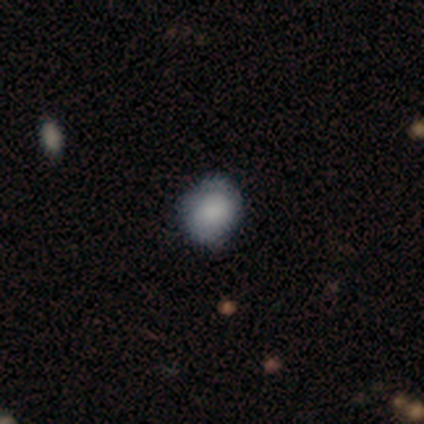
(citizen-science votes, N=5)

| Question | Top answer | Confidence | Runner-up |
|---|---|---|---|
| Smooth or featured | smooth | 80% | star or artifact (20%) |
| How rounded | round | 75% | in between (25%) |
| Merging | none | 75% | minor disturbance (25%) |